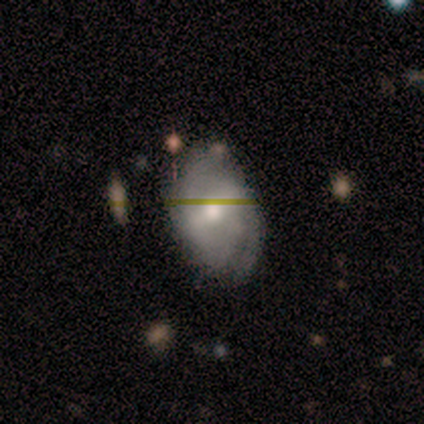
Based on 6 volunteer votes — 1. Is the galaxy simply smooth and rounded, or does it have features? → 83% featured or disk, 17% smooth, 0% star or artifact.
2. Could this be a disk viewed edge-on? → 100% no, 0% yes.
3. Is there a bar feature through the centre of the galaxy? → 80% strong, 20% weak, 0% no.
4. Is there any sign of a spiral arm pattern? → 80% yes, 20% no.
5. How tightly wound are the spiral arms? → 75% medium, 25% loose, 0% tight.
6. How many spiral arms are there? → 100% 2, 0% 1, 0% 3, 0% 4, 0% more than 4, 0% can't tell.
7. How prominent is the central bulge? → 80% moderate, 20% large, 0% dominant, 0% small, 0% none.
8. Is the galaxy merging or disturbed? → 50% none (tied), 50% minor disturbance (tied), 0% major disturbance, 0% merger.